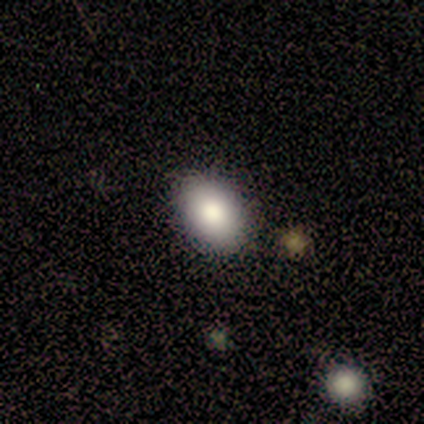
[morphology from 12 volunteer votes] Overall: smooth (83%). How rounded: in between (80%). Merging: none (91%).